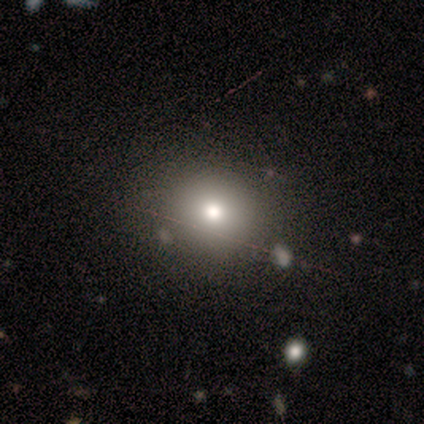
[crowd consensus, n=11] Morphology: type=smooth (73%); roundness=round (62%); merging=none (78%).